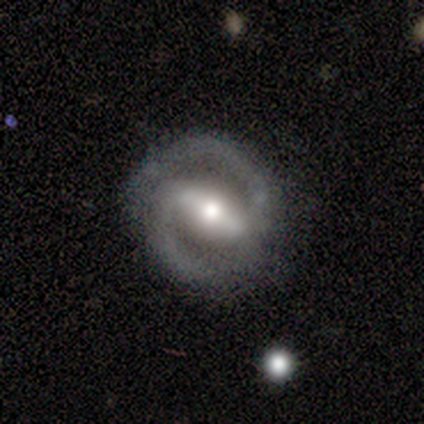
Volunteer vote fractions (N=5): Smooth or featured? 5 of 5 (100%) said featured or disk. Edge-on disk? 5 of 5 (100%) said no. Bar? 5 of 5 (100%) said strong. Spiral arms? 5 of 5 (100%) said yes. Spiral winding? 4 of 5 (80%) said tight. Spiral arm count? 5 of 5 (100%) said 2. Bulge size? 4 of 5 (80%) said moderate. Merging? 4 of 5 (80%) said none.